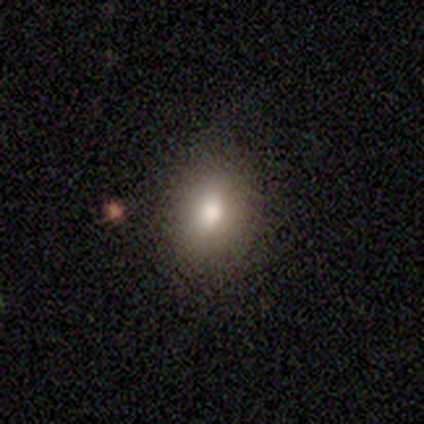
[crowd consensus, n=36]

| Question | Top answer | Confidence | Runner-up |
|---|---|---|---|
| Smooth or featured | smooth | 89% | star or artifact (8%) |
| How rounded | in between | 72% | round (28%) |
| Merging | none | 58% | minor disturbance (6%) |